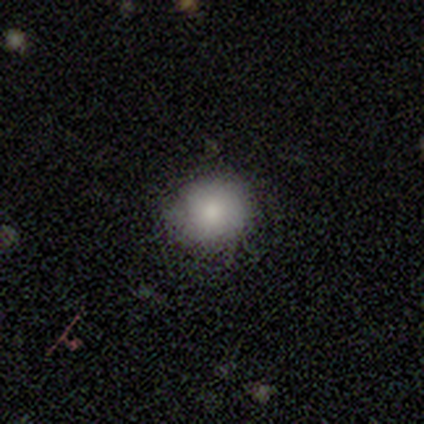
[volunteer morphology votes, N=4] smooth_or_featured: smooth (p=1.00)
how_rounded: round (p=1.00)
merging: none (p=1.00)